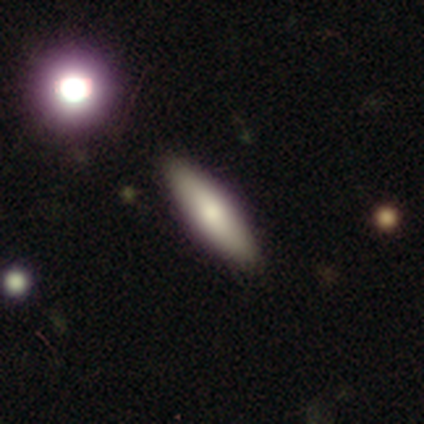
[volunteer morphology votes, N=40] Smooth or featured? smooth (78%)
How rounded? cigar-shaped (74%)
Merging? none (84%)